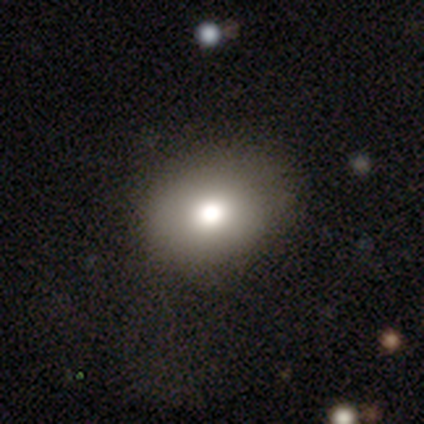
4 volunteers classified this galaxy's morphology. type=smooth (75%); roundness=in between (67%); merging=none (100%).